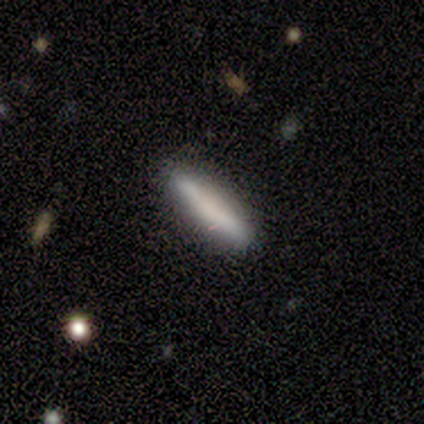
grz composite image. It shows a smooth galaxy with no disk features (100%) that is cigar-shaped (75%). Merging: none (75%).